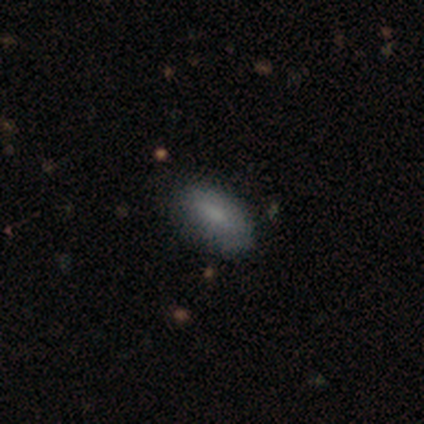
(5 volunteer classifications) Smooth or featured? smooth (80%)
How rounded? in between (100%)
Merging? none (80%)